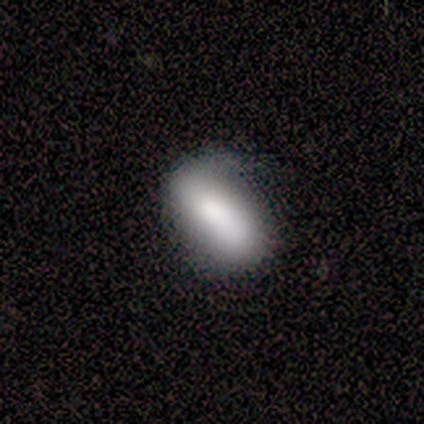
Smooth or featured? smooth (100%)
How rounded? in between (100%)
Merging? none (75%)